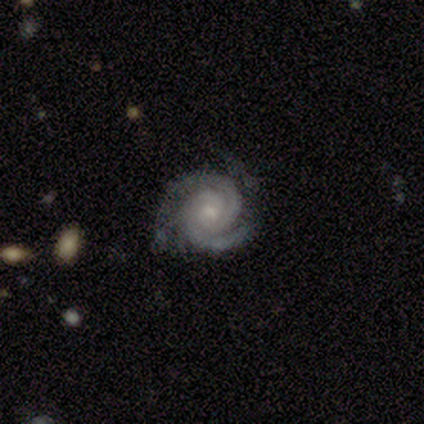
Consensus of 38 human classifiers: Smooth or featured: featured or disk — 92% (star or artifact — 5%)
Edge-on disk: no — 100%
Bar: no — 63% (weak — 29%)
Spiral arms: yes — 100%
Spiral winding: tight — 71% (medium — 29%)
Spiral arm count: 2 — 83% (3 — 14%)
Bulge size: moderate — 46% (small — 43%)
Merging: none — 67% (minor disturbance — 28%)